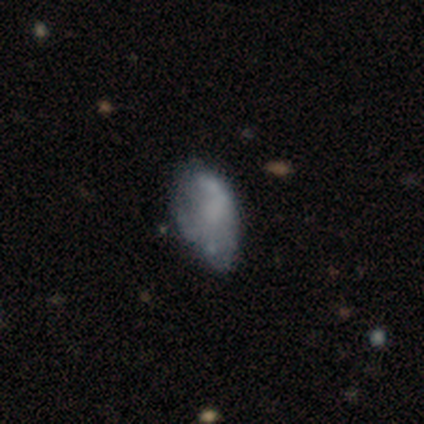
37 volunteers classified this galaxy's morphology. Smooth or featured? featured or disk (49%)
Edge-on disk? no (94%)
Bar? no (82%)
Spiral arms? no (82%)
Bulge size? none (94%)
Merging? minor disturbance (41%)